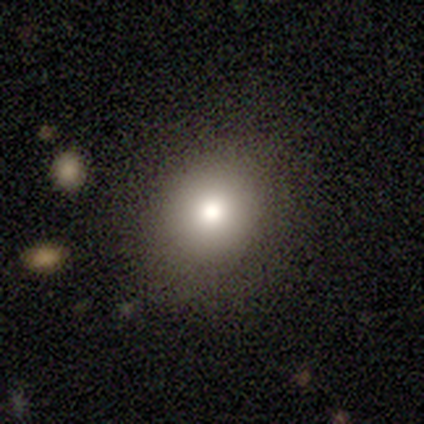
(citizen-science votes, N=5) smooth_or_featured: smooth (p=1.00)
how_rounded: round (p=0.80) [alt: in between p=0.20]
merging: none (p=1.00)